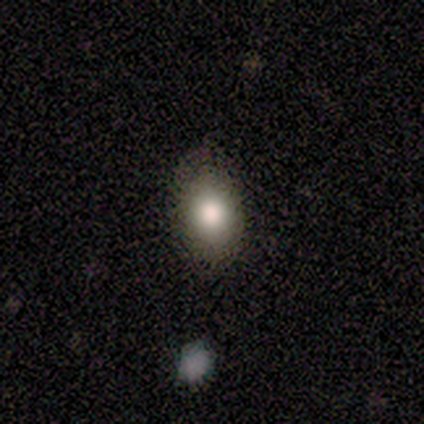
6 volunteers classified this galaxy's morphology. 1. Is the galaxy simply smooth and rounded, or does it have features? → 100% smooth, 0% featured or disk, 0% star or artifact.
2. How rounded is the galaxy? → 83% in between, 17% round, 0% cigar-shaped.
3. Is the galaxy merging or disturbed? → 100% none, 0% minor disturbance, 0% major disturbance, 0% merger.